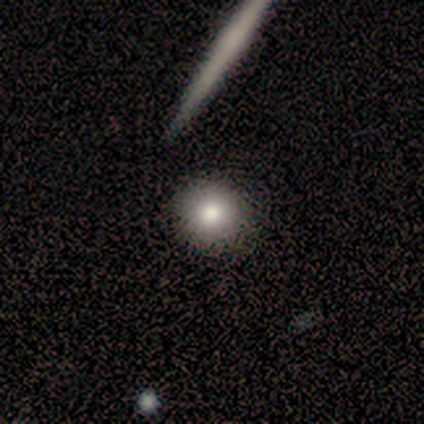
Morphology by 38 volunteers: This appears to be a smooth galaxy with no disk features (84%) that is round (100%). Merging: none (97%).